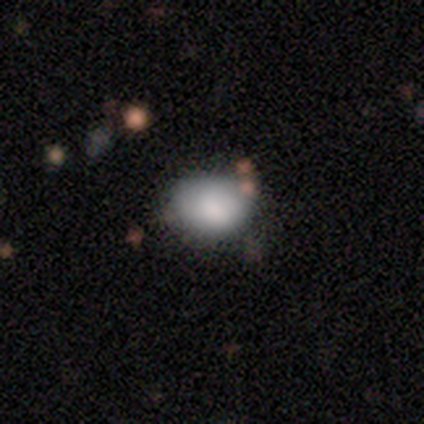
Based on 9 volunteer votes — A smooth galaxy with no disk features (67%) that is in between round and cigar-shaped (67%). Merging: none (67%).